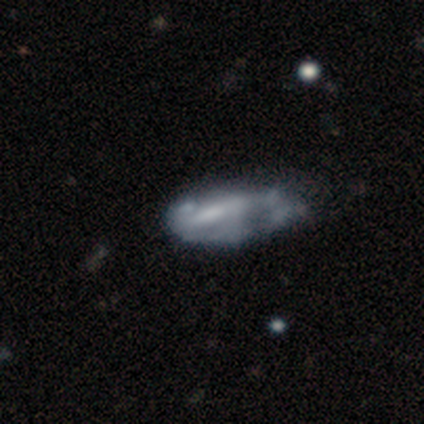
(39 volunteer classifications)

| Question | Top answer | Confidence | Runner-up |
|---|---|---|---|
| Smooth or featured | featured or disk | 72% | smooth (26%) |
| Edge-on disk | no | 93% | yes (7%) |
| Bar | weak | 46% | no (38%) |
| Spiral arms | no | 69% | yes (31%) |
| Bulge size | none | 65% | small (19%) |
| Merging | major disturbance | 39% | minor disturbance (24%) |